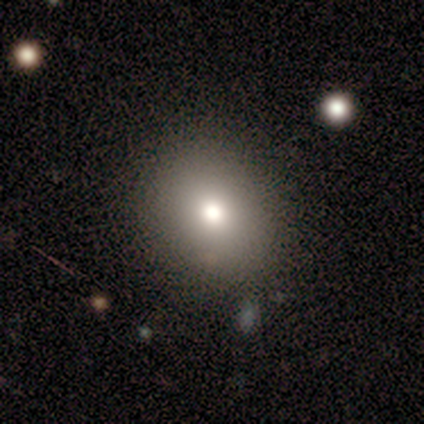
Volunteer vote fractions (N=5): smooth 60%, star or artifact 40%, featured or disk 0%. Down the decision tree: how rounded — round (67%); merging — none (100%).